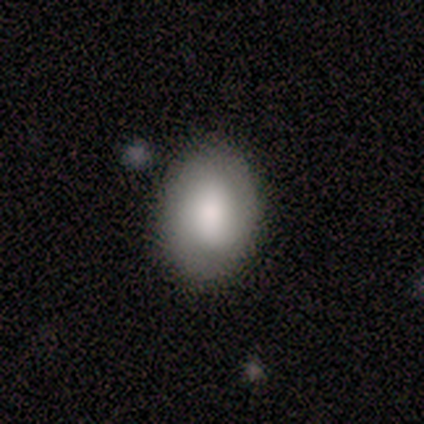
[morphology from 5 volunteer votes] type=smooth (100%); roundness=in between (80%); merging=none (80%).